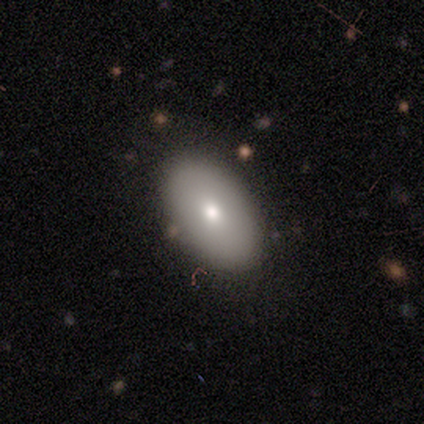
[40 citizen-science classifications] A smooth galaxy with no disk features (68%) that is in between round and cigar-shaped (100%).

Vote fractions:
- Smooth or featured? smooth: 68% / featured or disk: 25% / star or artifact: 8%
- How rounded? in between: 100% / round: 0% / cigar-shaped: 0%
- Merging? none: 92% / minor disturbance: 5% / major disturbance: 3% / merger: 0%